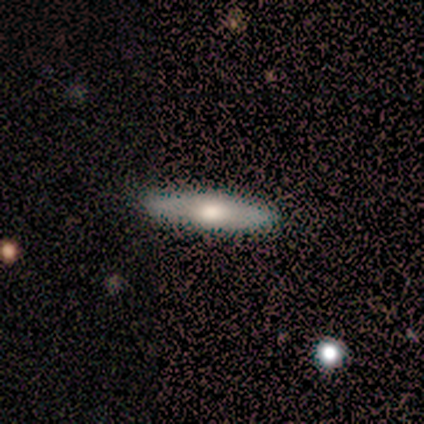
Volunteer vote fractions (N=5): smooth 40% (tied), featured or disk 40% (tied), star or artifact 20%. Down the decision tree: how rounded — cigar-shaped (100%); merging — none (75%).